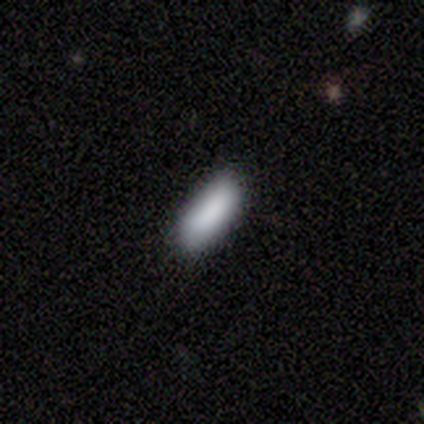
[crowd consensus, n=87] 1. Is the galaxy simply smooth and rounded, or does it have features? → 91% smooth, 6% star or artifact, 3% featured or disk.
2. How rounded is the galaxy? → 67% in between, 33% cigar-shaped, 0% round.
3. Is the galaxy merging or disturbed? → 89% none, 9% minor disturbance, 1% major disturbance, 1% merger.